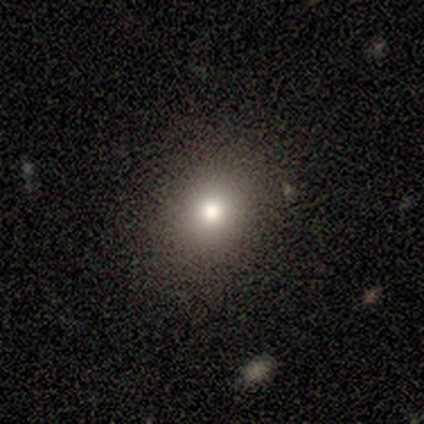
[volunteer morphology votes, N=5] Volunteers were most divided on "smooth or featured": smooth: 60%, star or artifact: 40%, featured or disk: 0%. More confident: merging — none (100%); how rounded — round (67%).